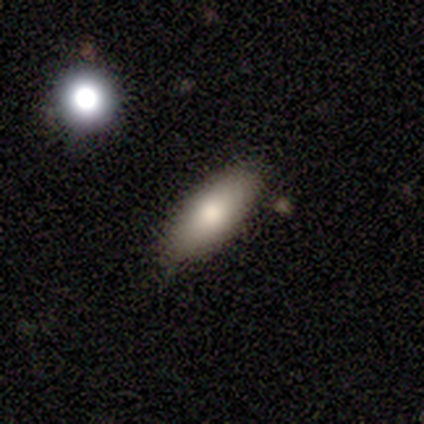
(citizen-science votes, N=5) Volunteers were most divided on "how rounded": in between: 80%, cigar-shaped: 20%, round: 0%. More confident: smooth or featured — smooth (100%); merging — none (80%).